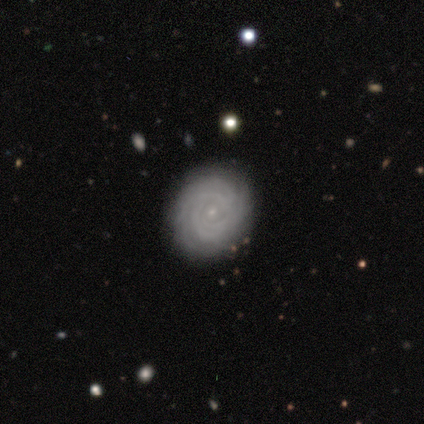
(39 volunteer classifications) Volunteers were most divided on "spiral arm count": can't tell: 40%, 3: 20%, more than 4: 20%, 2: 13%, 1: 3%, 4: 3%. More confident: edge-on disk — no (97%); bulge size — small (97%); spiral arms — yes (94%); merging — none (90%); smooth or featured — featured or disk (85%); spiral winding — tight (80%); bar — no (78%).